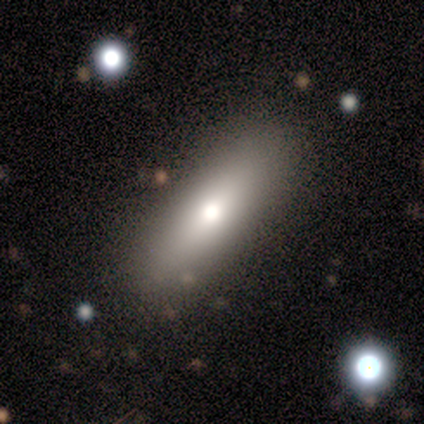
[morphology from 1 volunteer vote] smooth_or_featured: smooth (p=1.00)
how_rounded: in between (p=1.00)
merging: none (p=1.00)